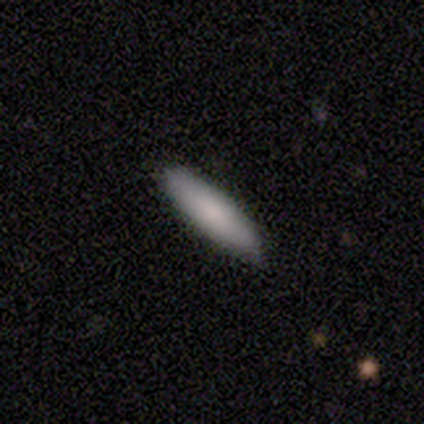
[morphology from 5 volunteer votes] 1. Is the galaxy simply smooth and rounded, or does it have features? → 80% smooth, 20% featured or disk, 0% star or artifact.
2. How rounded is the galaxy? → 75% cigar-shaped, 25% in between, 0% round.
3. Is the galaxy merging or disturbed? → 60% none, 40% minor disturbance, 0% major disturbance, 0% merger.